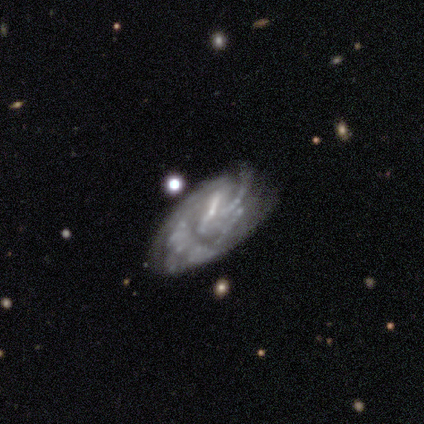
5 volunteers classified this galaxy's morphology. Smooth or featured? 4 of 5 (80%) said featured or disk. Edge-on disk? 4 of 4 (100%) said no. Bar? 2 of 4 (50%) said no. Spiral arms? 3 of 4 (75%) said yes. Spiral winding? 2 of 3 (67%) said tight. Spiral arm count? 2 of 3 (67%) said 4. Bulge size? 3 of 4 (75%) said none. Merging? 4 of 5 (80%) said none.